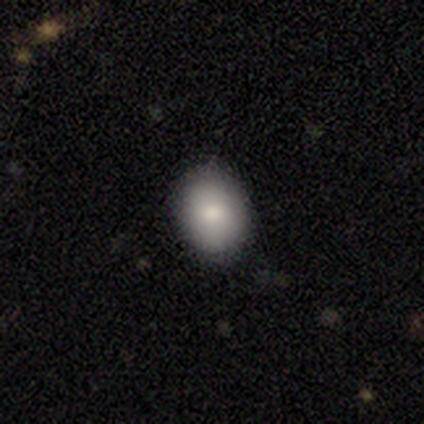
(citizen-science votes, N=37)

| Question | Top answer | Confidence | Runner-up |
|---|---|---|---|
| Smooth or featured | smooth | 89% | featured or disk (5%) |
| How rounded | in between | 61% | round (36%) |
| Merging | none | 74% | minor disturbance (23%) |